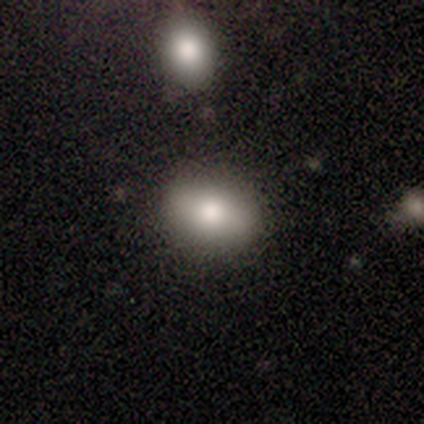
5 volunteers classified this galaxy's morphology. A smooth galaxy with no disk features (60%) that is in between round and cigar-shaped (67%). Merging: none (75%).